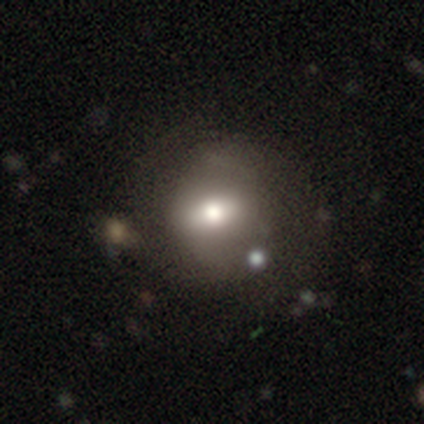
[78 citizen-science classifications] A smooth galaxy with no disk features (58%) that is round (64%).

Vote fractions:
- Smooth or featured? smooth: 58% / featured or disk: 32% / star or artifact: 10%
- How rounded? round: 64% / in between: 33% / cigar-shaped: 2%
- Merging? none: 34% / merger: 13% / minor disturbance: 7% / major disturbance: 6%